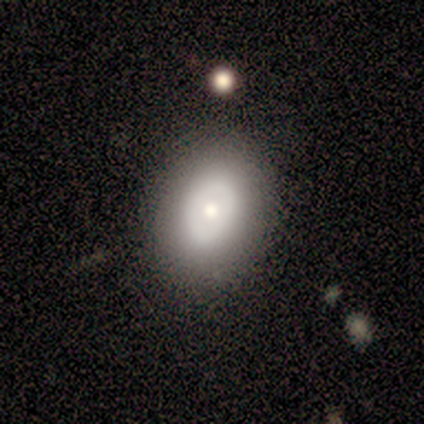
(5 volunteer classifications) Morphology: type=featured or disk (60%); edge-on=no (100%); bar=no (100%); spiral arms=no (100%); bulge=moderate (67%); merging=none (75%).